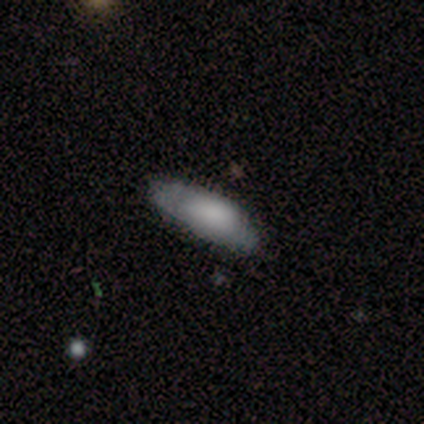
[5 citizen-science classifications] Q: Smooth or featured?
A: smooth (60%); runner-up: featured or disk (40%)
Q: How rounded?
A: in between (67%); runner-up: cigar-shaped (33%)
Q: Merging?
A: none (60%); runner-up: minor disturbance (40%)